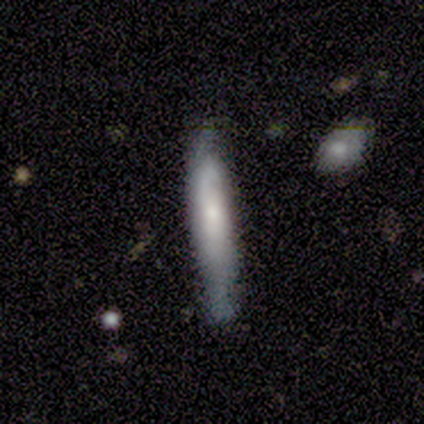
Volunteers were most divided on "smooth or featured": smooth: 60%, featured or disk: 40%, star or artifact: 0%. More confident: how rounded — cigar-shaped (100%); merging — none (80%).